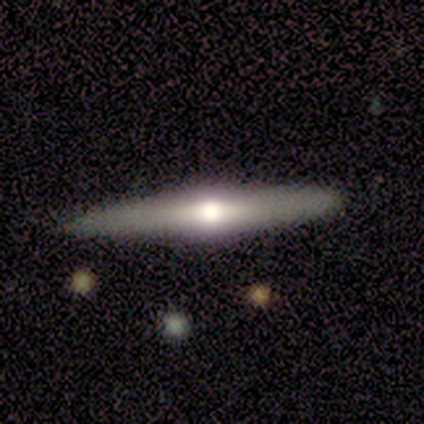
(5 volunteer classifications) smooth_or_featured: featured or disk (p=1.00)
disk_edge_on: yes (p=1.00)
edge_on_bulge: rounded (p=1.00)
merging: none (p=0.80) [alt: minor disturbance p=0.20]